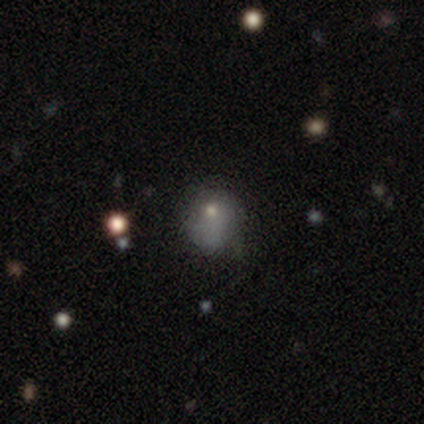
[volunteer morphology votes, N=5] A featured or disk galaxy (40%, tied with star or artifact) with a weak bar (50%, tied with no), no spiral arms (100%) and a moderate central bulge (50%, tied with small).

Vote fractions:
- Smooth or featured? featured or disk: 40% (tied) / star or artifact: 40% (tied) / smooth: 20%
- Edge-on disk? no: 100% / yes: 0%
- Bar? weak: 50% (tied) / no: 50% (tied) / strong: 0%
- Spiral arms? no: 100% / yes: 0%
- Bulge size? moderate: 50% (tied) / small: 50% (tied) / dominant: 0% / large: 0% / none: 0%
- Merging? major disturbance: 67% / minor disturbance: 33% / none: 0% / merger: 0%